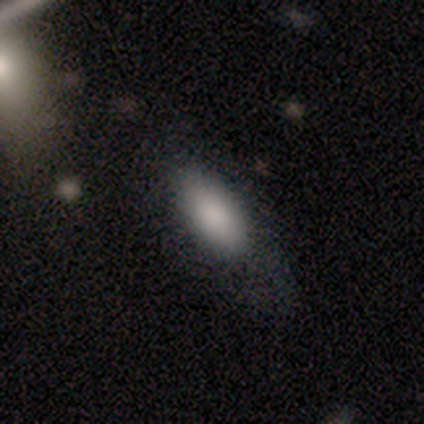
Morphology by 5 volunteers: A smooth galaxy with no disk features (100%) that is in between round and cigar-shaped (100%).

Vote fractions:
- Smooth or featured? smooth: 100% / featured or disk: 0% / star or artifact: 0%
- How rounded? in between: 100% / round: 0% / cigar-shaped: 0%
- Merging? none: 40% (tied) / minor disturbance: 40% (tied) / major disturbance: 20% / merger: 0%